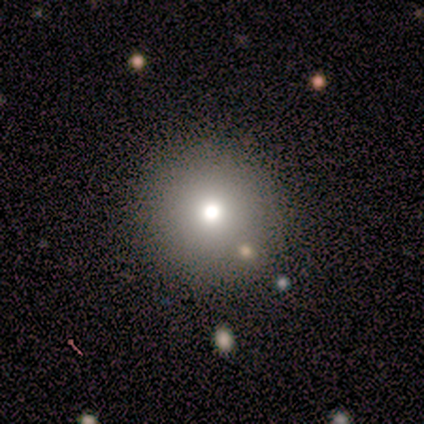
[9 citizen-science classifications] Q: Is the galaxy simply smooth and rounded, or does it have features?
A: smooth — 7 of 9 (78%).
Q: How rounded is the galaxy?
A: round — 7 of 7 (100%).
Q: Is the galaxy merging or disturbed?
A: none — 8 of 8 (100%).